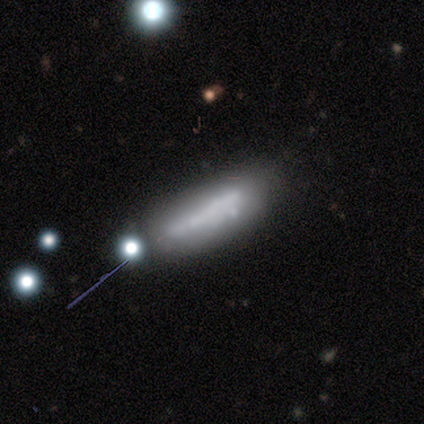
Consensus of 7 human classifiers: A smooth galaxy with no disk features (43%, tied with featured or disk) that is cigar-shaped (100%).

Vote fractions:
- Smooth or featured? smooth: 43% (tied) / featured or disk: 43% (tied) / star or artifact: 14%
- How rounded? cigar-shaped: 100% / round: 0% / in between: 0%
- Merging? none: 50% / minor disturbance: 33% / major disturbance: 17% / merger: 0%